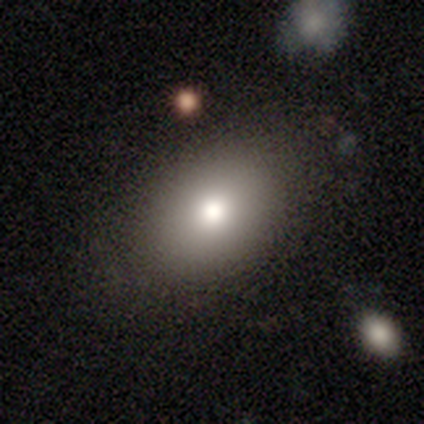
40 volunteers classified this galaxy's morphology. This is clearly a smooth galaxy (80%). How rounded: likely in between (78%). Merging: clearly none (91%).